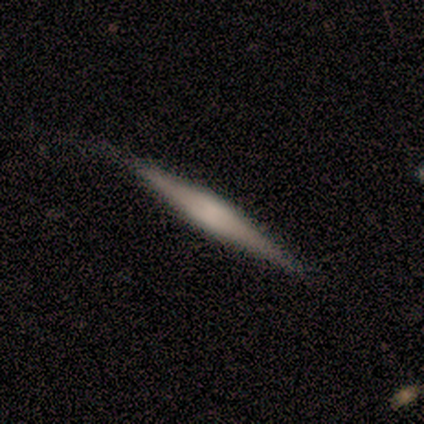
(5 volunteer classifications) smooth_or_featured: featured or disk (p=0.60) [alt: smooth p=0.40]
disk_edge_on: yes (p=1.00)
edge_on_bulge: none (p=0.67) [alt: boxy p=0.33]
merging: none (p=1.00)